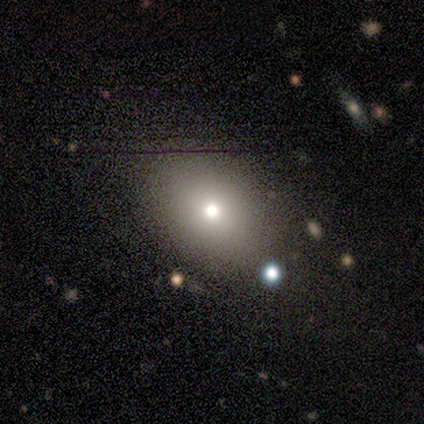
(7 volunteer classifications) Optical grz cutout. It shows a smooth galaxy with no disk features (57%) that is in between round and cigar-shaped (75%). Merging: none (80%).